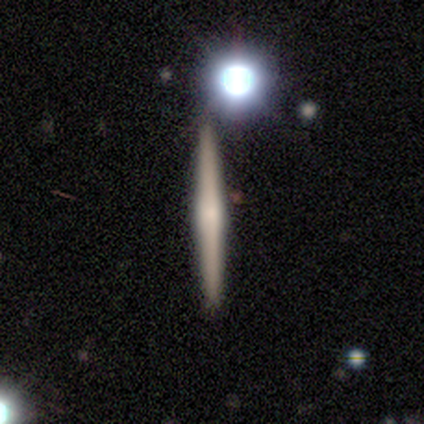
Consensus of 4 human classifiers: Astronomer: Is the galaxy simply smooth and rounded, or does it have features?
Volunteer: smooth — 50%.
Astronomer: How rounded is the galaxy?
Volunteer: cigar-shaped — 100%.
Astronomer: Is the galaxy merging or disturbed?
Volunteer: none — 100%.